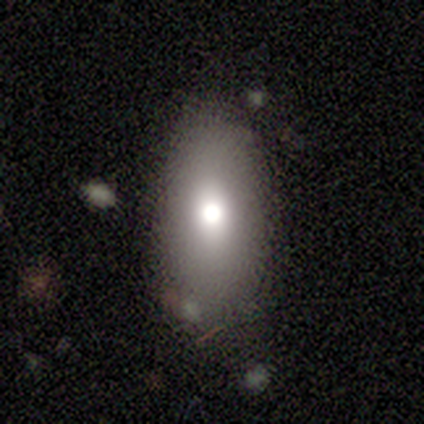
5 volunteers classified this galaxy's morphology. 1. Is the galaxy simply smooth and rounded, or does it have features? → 80% smooth, 20% featured or disk, 0% star or artifact.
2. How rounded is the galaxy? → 100% in between, 0% round, 0% cigar-shaped.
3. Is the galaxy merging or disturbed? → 60% none, 40% minor disturbance, 0% major disturbance, 0% merger.